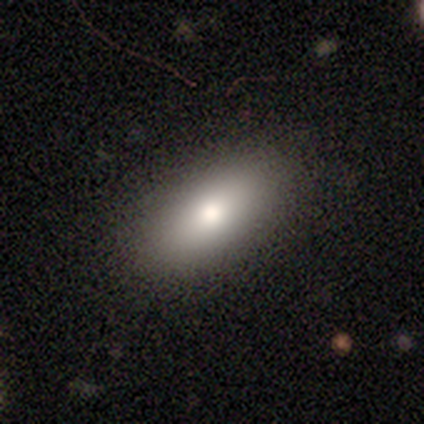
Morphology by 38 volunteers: smooth 76%, featured or disk 16%, star or artifact 8%. Down the decision tree: how rounded — in between (97%); merging — none (80%).